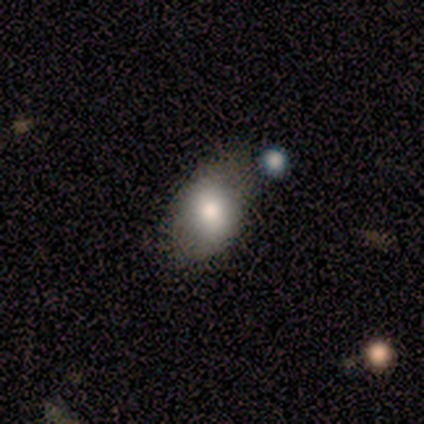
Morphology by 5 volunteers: This is clearly a smooth galaxy (100%). How rounded: clearly in between (80%). Merging: likely none (60%).